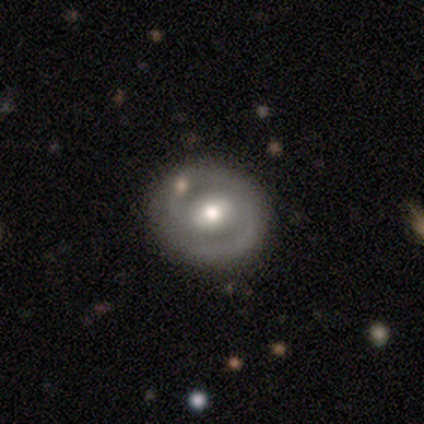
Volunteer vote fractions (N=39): Smooth or featured: featured or disk — 72% (smooth — 28%)
Edge-on disk: no — 96% (yes — 4%)
Bar: weak — 44% (no — 33%)
Spiral arms: yes — 59% (no — 41%)
Spiral winding: tight — 38% (tied with loose — 38%)
Spiral arm count: 2 — 69% (can't tell — 25%)
Bulge size: moderate — 67% (large — 19%)
Merging: none — 77% (merger — 15%)